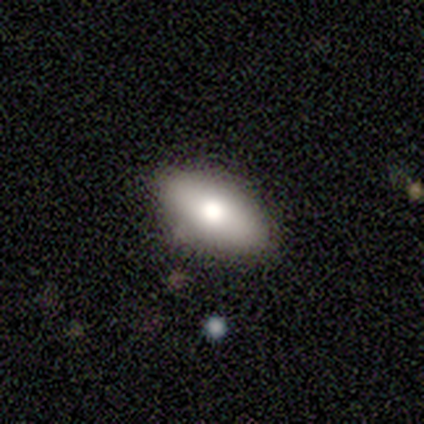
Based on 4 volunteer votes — A smooth galaxy with no disk features (75%) that is in between round and cigar-shaped (67%). Merging: none (75%).